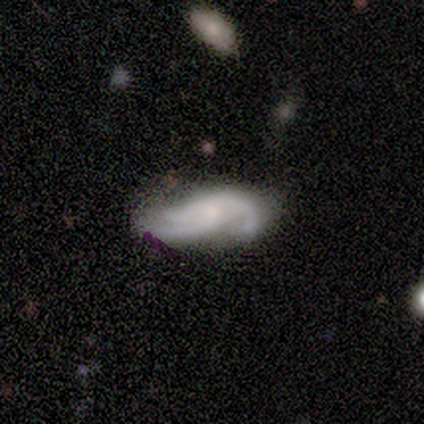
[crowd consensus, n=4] A featured or disk galaxy (100%) with no bar (75%), 2 (75%) medium (50%, tied with loose) spiral arms (100%) and no central bulge (50%).

Vote fractions:
- Smooth or featured? featured or disk: 100% / smooth: 0% / star or artifact: 0%
- Edge-on disk? no: 100% / yes: 0%
- Bar? no: 75% / weak: 25% / strong: 0%
- Spiral arms? yes: 100% / no: 0%
- Spiral winding? medium: 50% (tied) / loose: 50% (tied) / tight: 0%
- Spiral arm count? 2: 75% / 3: 25% / 1: 0% / 4: 0% / more than 4: 0% / can't tell: 0%
- Bulge size? none: 50% / moderate: 25% / small: 25% / dominant: 0% / large: 0%
- Merging? none: 50% / minor disturbance: 25% / major disturbance: 25% / merger: 0%